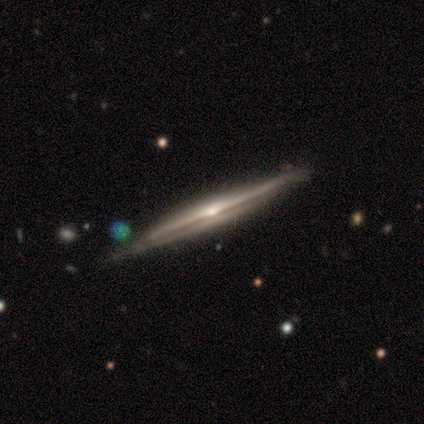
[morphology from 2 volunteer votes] type=smooth (50%, tied with featured or disk); roundness=cigar-shaped (100%); merging=none (50%, tied with merger).